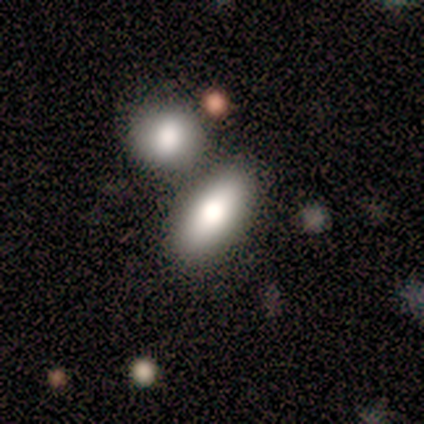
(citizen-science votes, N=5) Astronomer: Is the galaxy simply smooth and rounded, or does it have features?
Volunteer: smooth — 80%.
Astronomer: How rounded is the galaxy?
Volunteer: in between — 75%.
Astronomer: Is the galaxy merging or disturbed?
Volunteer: none — 80%.